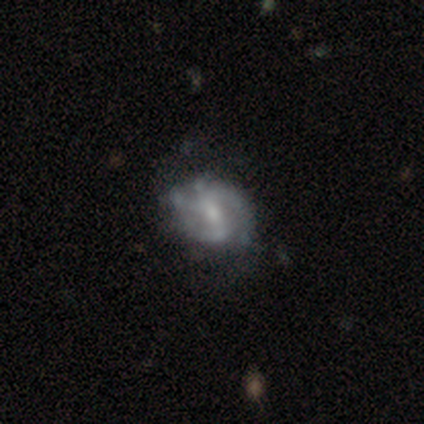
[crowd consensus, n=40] smooth_or_featured: featured or disk (p=0.82) [alt: smooth p=0.12]
disk_edge_on: no (p=0.97) [alt: yes p=0.03]
bar: weak (p=0.59) [alt: strong p=0.22]
has_spiral_arms: yes (p=0.84) [alt: no p=0.16]
spiral_winding: medium (p=0.44) [alt: loose p=0.30]
spiral_arm_count: 2 (p=0.70) [alt: can't tell p=0.15]
bulge_size: small (p=0.56) [alt: moderate p=0.31]
merging: none (p=0.45) [alt: minor disturbance p=0.26]